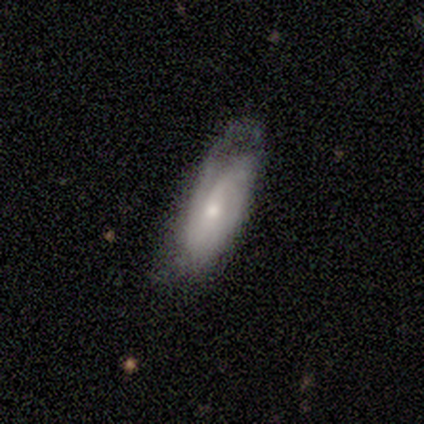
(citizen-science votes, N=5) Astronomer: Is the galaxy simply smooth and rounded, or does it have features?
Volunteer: smooth — 60%.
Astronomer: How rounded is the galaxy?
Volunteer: in between — 67%.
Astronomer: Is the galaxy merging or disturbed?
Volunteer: none — 75%.